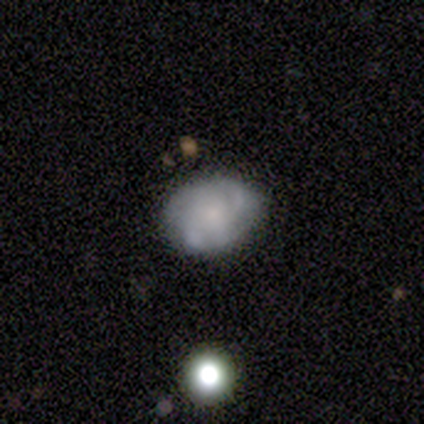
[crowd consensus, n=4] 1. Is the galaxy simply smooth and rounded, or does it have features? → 50% featured or disk, 25% smooth, 25% star or artifact.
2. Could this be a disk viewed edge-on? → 100% no, 0% yes.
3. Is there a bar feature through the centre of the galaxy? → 50% weak (tied), 50% no (tied), 0% strong.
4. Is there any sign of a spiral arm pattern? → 100% yes, 0% no.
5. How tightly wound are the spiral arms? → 50% medium (tied), 50% loose (tied), 0% tight.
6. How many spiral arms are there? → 50% 4 (tied), 50% can't tell (tied), 0% 1, 0% 2, 0% 3, 0% more than 4.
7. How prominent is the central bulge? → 50% large (tied), 50% small (tied), 0% dominant, 0% moderate, 0% none.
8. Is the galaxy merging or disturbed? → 67% minor disturbance, 33% none, 0% major disturbance, 0% merger.